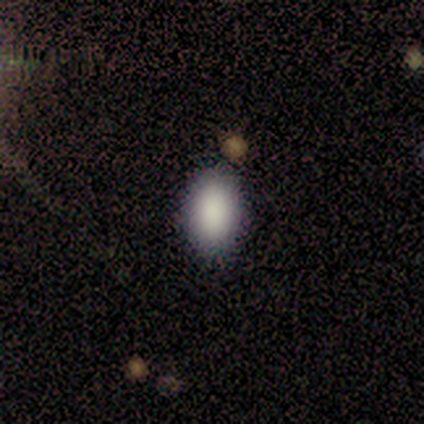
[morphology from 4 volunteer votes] type=smooth (75%); roundness=in between (100%); merging=none (100%).